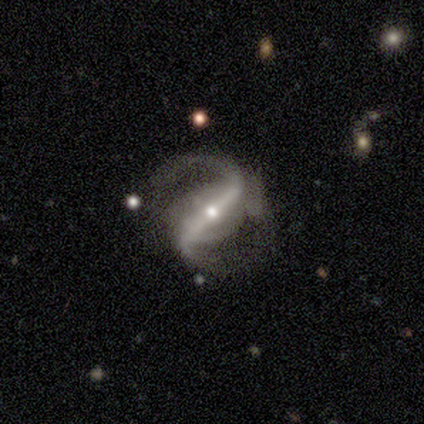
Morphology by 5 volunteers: A featured or disk galaxy (100%) with a strong bar (100%), 2 (100%) medium (40%, tied with loose) spiral arms (100%) and a large central bulge (40%, tied with moderate). Merging: none (40%, tied with minor disturbance).